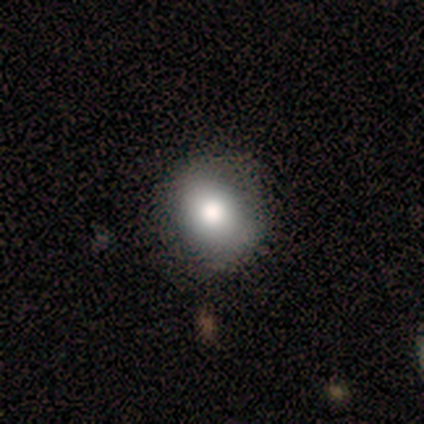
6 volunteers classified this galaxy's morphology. Smooth or featured: smooth — 67% (featured or disk — 17%)
How rounded: round — 75% (in between — 25%)
Merging: none — 100%